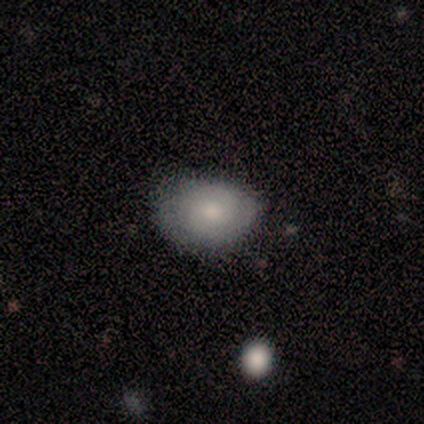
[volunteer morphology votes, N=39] Smooth or featured? 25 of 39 (64%) said smooth. How rounded? 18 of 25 (72%) said in between. Merging? 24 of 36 (67%) said none.